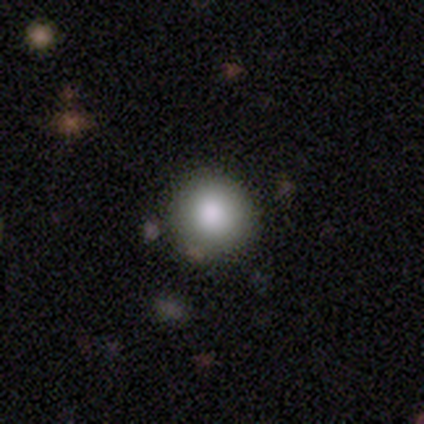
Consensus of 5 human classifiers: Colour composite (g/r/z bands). It shows a smooth galaxy with no disk features (60%) that is round (100%). Merging: none (67%).